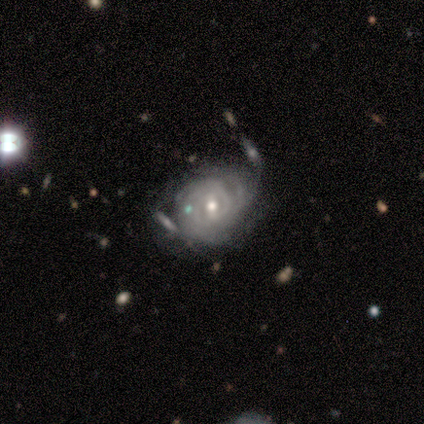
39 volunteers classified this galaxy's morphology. Overall: featured or disk (90%). Edge-on disk: no (97%). Bar: weak (65%). Spiral arms: yes (88%). Spiral arm count: can't tell (43%; 2 27%). Spiral winding: tight (87%). Bulge size: moderate (59%; small 38%). Merging: minor disturbance (28%; none 26%).